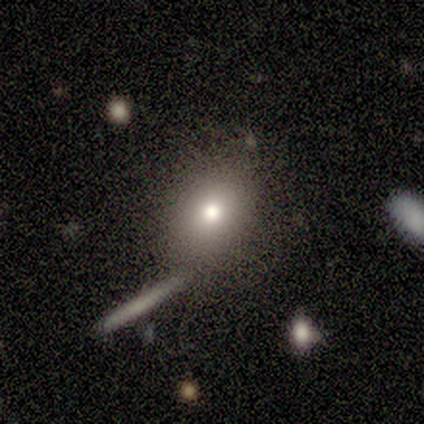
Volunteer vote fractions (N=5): Q: Smooth or featured?
A: smooth (60%); runner-up: featured or disk (20%)
Q: How rounded?
A: round (67%); runner-up: in between (33%)
Q: Merging?
A: none (75%); runner-up: minor disturbance (25%)